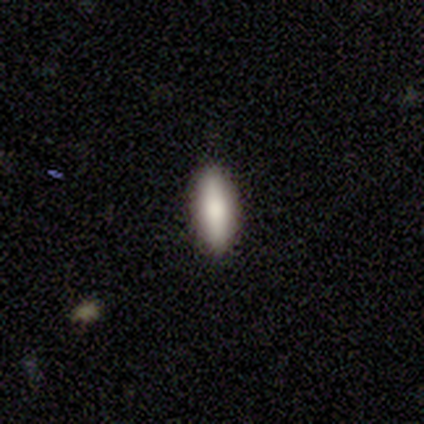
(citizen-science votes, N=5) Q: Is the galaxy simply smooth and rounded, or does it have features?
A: smooth — 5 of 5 (100%).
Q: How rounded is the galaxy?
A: cigar-shaped — 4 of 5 (80%).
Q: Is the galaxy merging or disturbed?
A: none — 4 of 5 (80%).